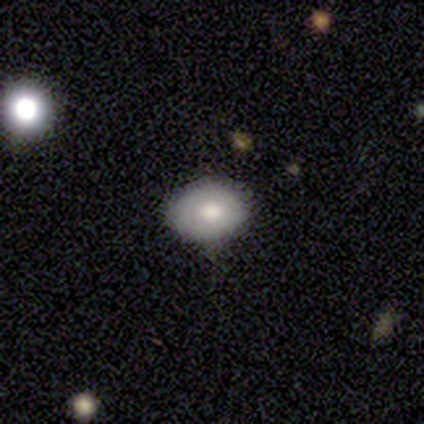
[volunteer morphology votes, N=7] This appears to be a smooth galaxy with no disk features (100%) that is round (57%). Merging: none (86%).